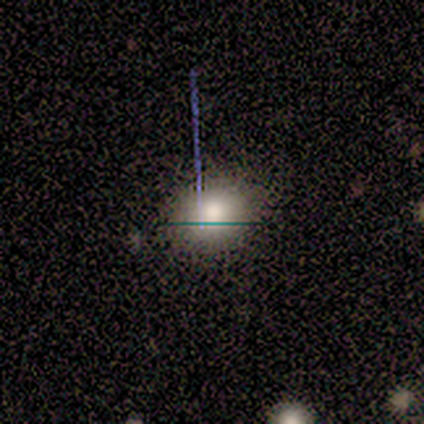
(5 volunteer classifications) Smooth or featured? 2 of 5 (40%, tied with star or artifact) said smooth. How rounded? 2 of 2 (100%) said round. Merging? 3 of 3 (100%) said none.